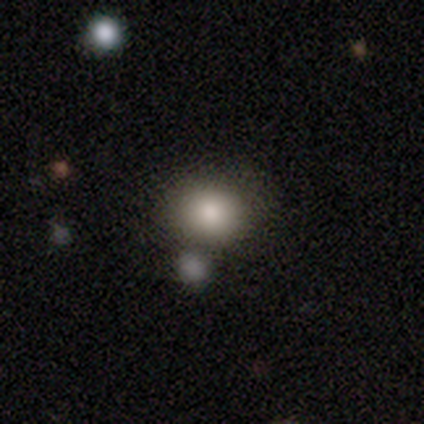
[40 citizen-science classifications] Morphology: type=smooth (70%); roundness=round (68%); merging=none (58%).